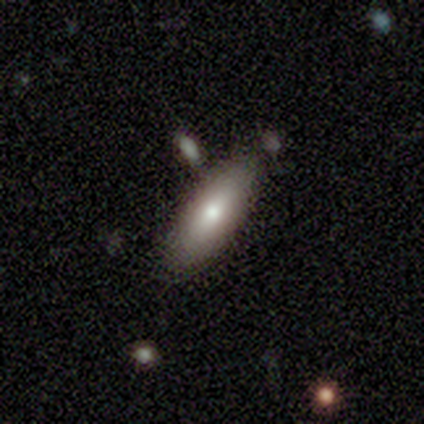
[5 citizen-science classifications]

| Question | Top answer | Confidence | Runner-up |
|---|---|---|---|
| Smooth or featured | smooth | 100% | — |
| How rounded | cigar-shaped | 60% | in between (40%) |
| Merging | none | 60% | minor disturbance (20%) |